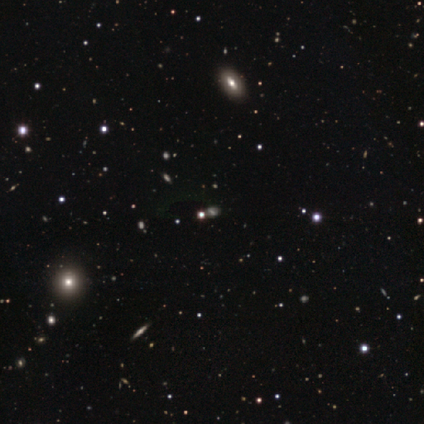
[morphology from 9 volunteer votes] Smooth or featured?
  - star or artifact: 67% *
  - smooth: 22%
  - featured or disk: 11%